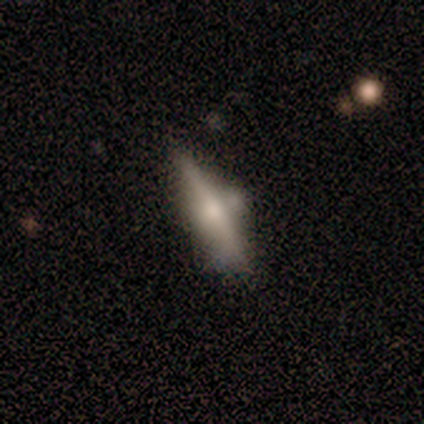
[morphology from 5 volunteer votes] Overall: featured or disk (100%). Edge-on disk: yes (100%). Edge-on bulge: rounded (60%; boxy 20%). Merging: minor disturbance (60%; none 40%).